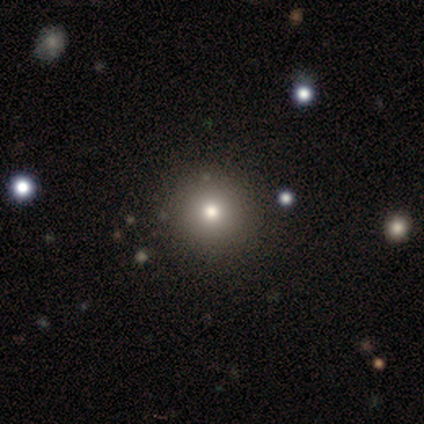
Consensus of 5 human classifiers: Smooth or featured: smooth — 60% (star or artifact — 40%)
How rounded: round — 100%
Merging: none — 67% (minor disturbance — 33%)